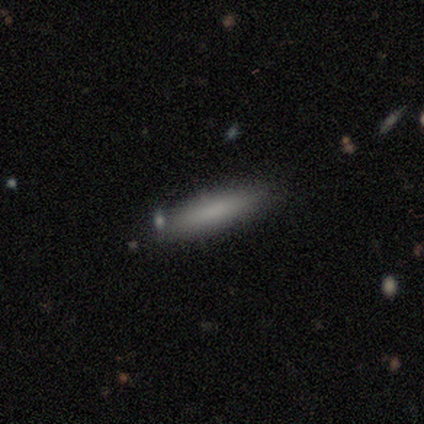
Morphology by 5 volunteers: smooth-or-featured: smooth: 60% | featured or disk: 40% | star or artifact: 0%
  how-rounded: cigar-shaped: 67% | in between: 33% | round: 0%
  merging: none: 100% | minor disturbance: 0% | major disturbance: 0% | merger: 0%